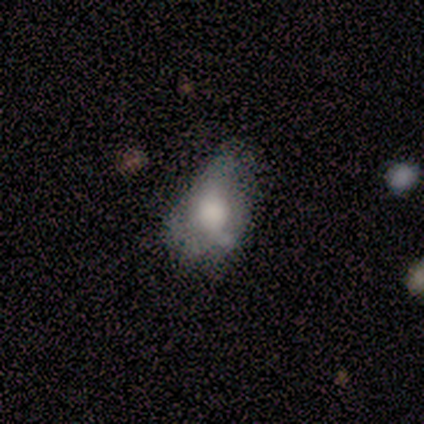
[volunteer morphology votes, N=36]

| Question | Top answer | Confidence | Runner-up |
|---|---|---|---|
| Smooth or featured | smooth | 58% | featured or disk (31%) |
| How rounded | in between | 81% | round (10%) |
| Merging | minor disturbance | 47% | major disturbance (28%) |